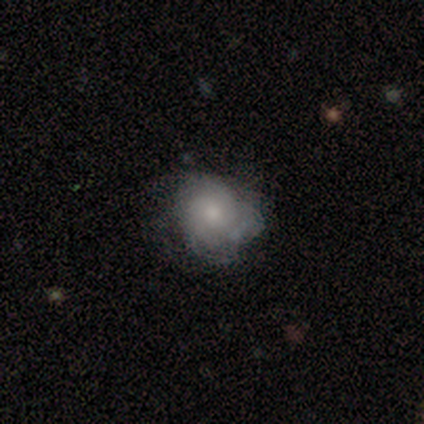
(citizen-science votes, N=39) smooth_or_featured: featured or disk (p=0.49) [alt: smooth p=0.38]
disk_edge_on: no (p=1.00)
bar: no (p=0.79) [alt: weak p=0.21]
has_spiral_arms: yes (p=0.89) [alt: no p=0.11]
spiral_winding: tight (p=0.76) [alt: medium p=0.18]
spiral_arm_count: can't tell (p=0.71) [alt: 2 p=0.12]
bulge_size: small (p=0.47) [alt: moderate p=0.42]
merging: none (p=0.50) [alt: minor disturbance p=0.41]